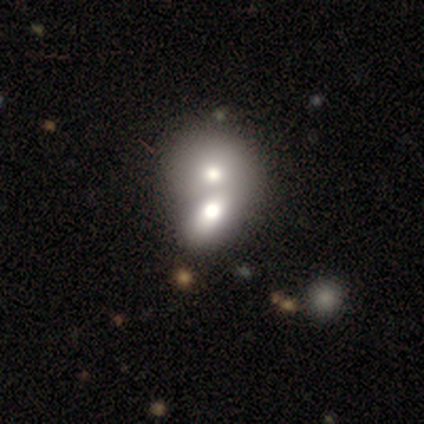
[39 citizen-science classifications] Morphology: type=smooth (64%); roundness=round (60%); merging=merger (68%).